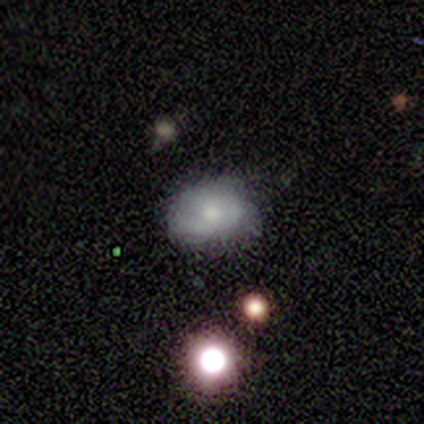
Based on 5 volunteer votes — Morphology: type=smooth (60%); roundness=in between (67%); merging=none (60%).